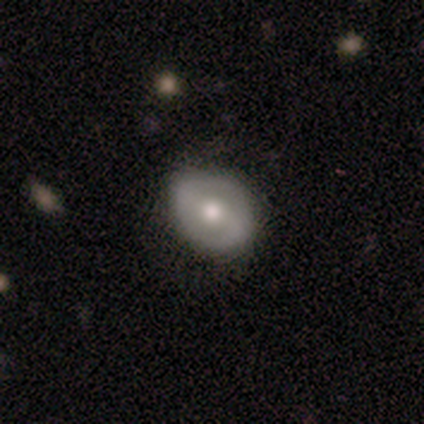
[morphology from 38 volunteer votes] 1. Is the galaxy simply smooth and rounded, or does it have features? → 71% featured or disk, 26% smooth, 3% star or artifact.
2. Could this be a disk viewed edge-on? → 100% no, 0% yes.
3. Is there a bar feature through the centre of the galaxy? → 41% strong, 37% weak, 22% no.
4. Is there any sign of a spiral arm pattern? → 52% yes, 48% no.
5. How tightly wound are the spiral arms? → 50% medium, 29% loose, 21% tight.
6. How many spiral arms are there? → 86% 2, 14% 1, 0% 3, 0% 4, 0% more than 4, 0% can't tell.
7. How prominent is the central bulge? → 63% moderate, 19% large, 15% small, 4% dominant, 0% none.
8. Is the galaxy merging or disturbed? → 81% none, 19% minor disturbance, 0% major disturbance, 0% merger.